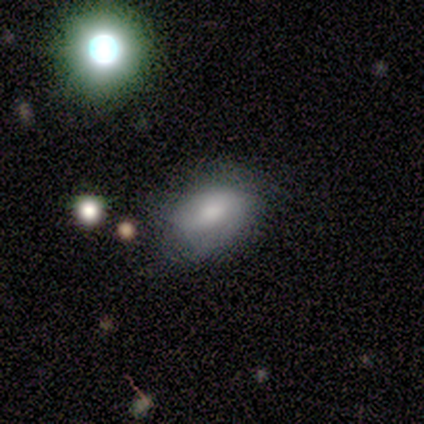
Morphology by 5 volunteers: Volunteers were most divided on "smooth or featured" (2-way tie): smooth: 40%, featured or disk: 40%, star or artifact: 20%. More confident: how rounded — in between (100%); merging — none (75%).